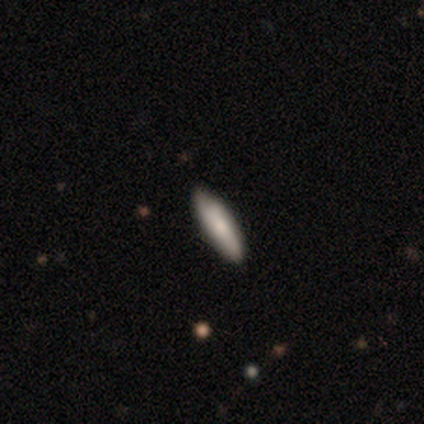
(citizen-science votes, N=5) Volunteers were most divided on "how rounded" (2-way tie): in between: 50%, cigar-shaped: 50%, round: 0%. More confident: smooth or featured — smooth (80%); merging — none (75%).